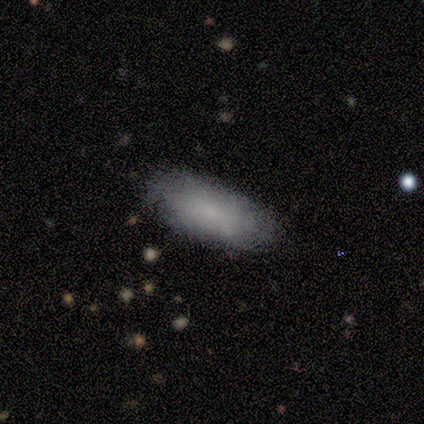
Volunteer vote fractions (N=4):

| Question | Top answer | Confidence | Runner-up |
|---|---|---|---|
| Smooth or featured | smooth | 100% | — |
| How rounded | in between | 100% | — |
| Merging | none | 100% | — |